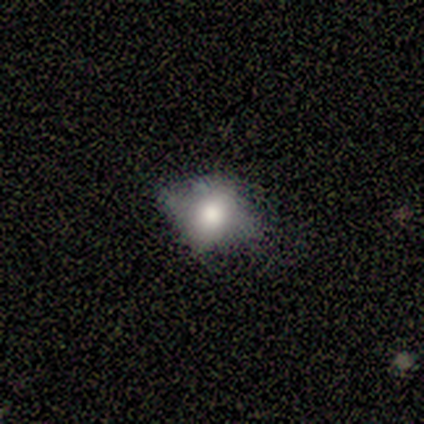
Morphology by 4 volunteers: Q: Smooth or featured?
A: featured or disk (75%); runner-up: smooth (25%)
Q: Edge-on disk?
A: no (67%); runner-up: yes (33%)
Q: Bar?
A: no (100%)
Q: Spiral arms?
A: no (100%)
Q: Bulge size?
A: moderate (100%)
Q: Merging?
A: none (75%); runner-up: minor disturbance (25%)